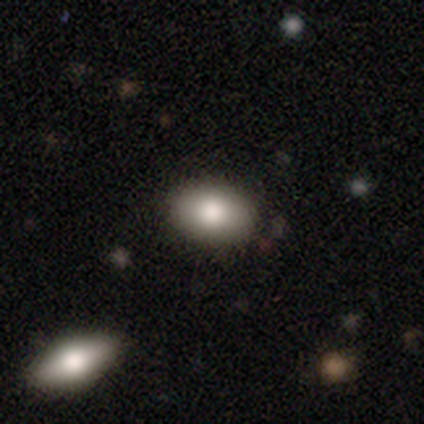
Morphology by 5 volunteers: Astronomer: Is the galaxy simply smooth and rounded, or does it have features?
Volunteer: smooth — 60%.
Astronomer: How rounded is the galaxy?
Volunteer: in between — 100%.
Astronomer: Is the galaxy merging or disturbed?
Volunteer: none — 75%.